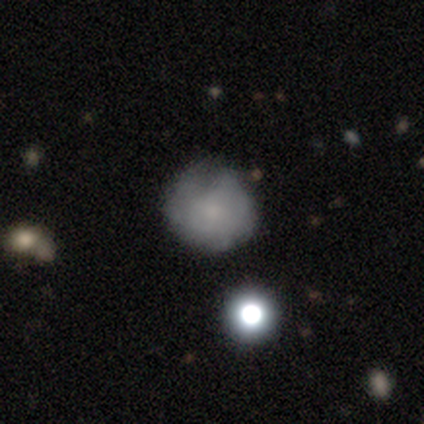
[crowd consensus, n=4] Q: Smooth or featured?
A: smooth (50%); runner-up: featured or disk (25%)
Q: How rounded?
A: round (100%)
Q: Merging?
A: none (67%); runner-up: major disturbance (33%)